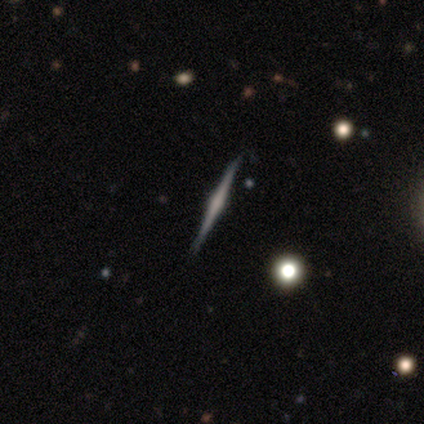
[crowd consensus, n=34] This is likely a featured or disk galaxy (76%). It is clearly viewed edge-on (100%). Edge-on bulge: likely rounded (77%). Merging: clearly none (90%).